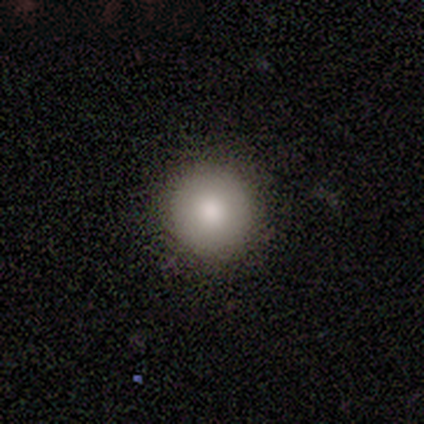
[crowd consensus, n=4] This is clearly a smooth galaxy (100%). How rounded: clearly round (100%). Merging: clearly none (100%).